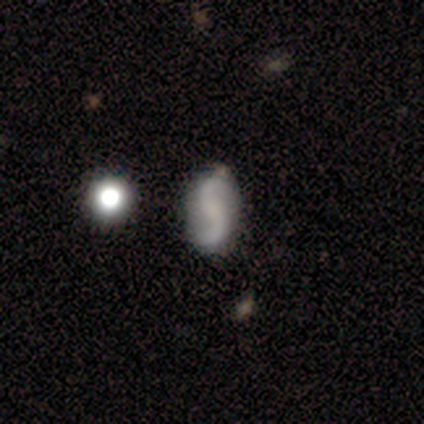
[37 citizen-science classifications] Volunteers were most divided on "bar": no: 58%, weak: 33%, strong: 9%. More confident: edge-on disk — no (100%); spiral arm count — 2 (100%); spiral arms — yes (94%); merging — none (92%); spiral winding — loose (90%); smooth or featured — featured or disk (89%); bulge size — none (61%).